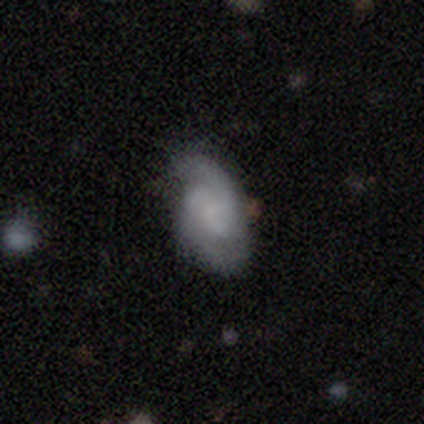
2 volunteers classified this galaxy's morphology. Overall: smooth (50%, tied with featured or disk). How rounded: in between (100%). Merging: none (100%).